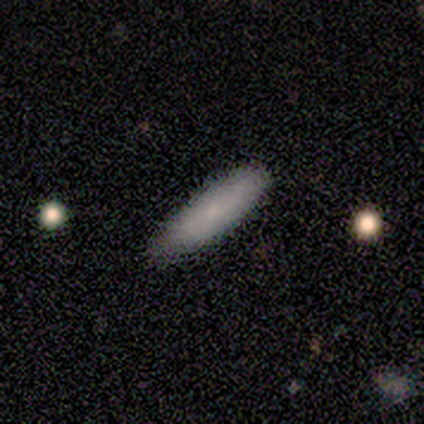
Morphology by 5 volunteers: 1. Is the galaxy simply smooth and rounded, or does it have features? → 80% smooth, 20% featured or disk, 0% star or artifact.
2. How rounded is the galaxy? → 50% in between (tied), 50% cigar-shaped (tied), 0% round.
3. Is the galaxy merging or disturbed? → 100% none, 0% minor disturbance, 0% major disturbance, 0% merger.